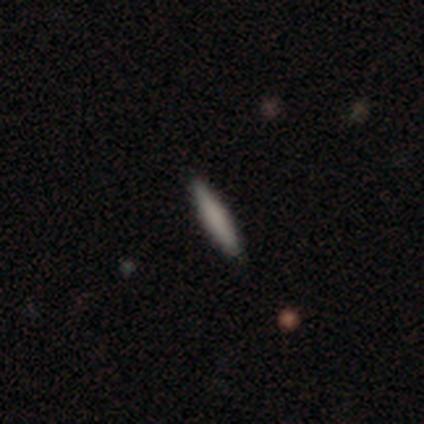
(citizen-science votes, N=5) smooth-or-featured: smooth: 80% | featured or disk: 20% | star or artifact: 0%
  how-rounded: cigar-shaped: 75% | round: 25% | in between: 0%
  merging: none: 80% | minor disturbance: 20% | major disturbance: 0% | merger: 0%